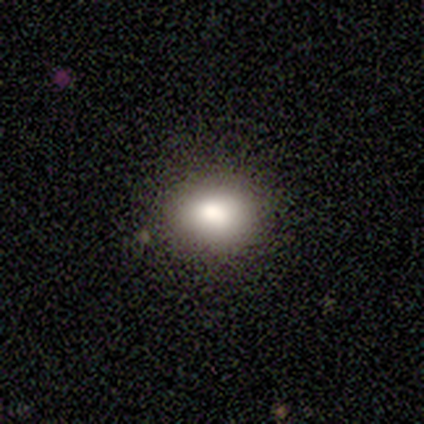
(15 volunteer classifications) This is clearly a smooth galaxy (87%). How rounded: possibly round (54%). Merging: clearly none (85%).